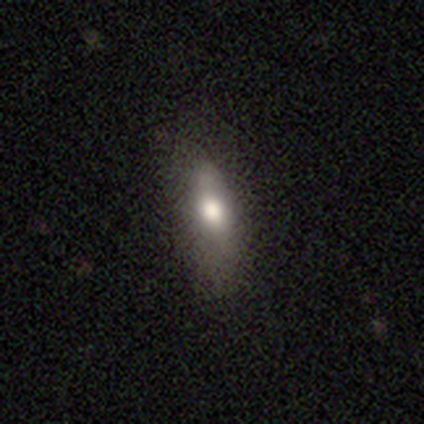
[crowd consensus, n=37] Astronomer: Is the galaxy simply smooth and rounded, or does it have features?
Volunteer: smooth — 65%.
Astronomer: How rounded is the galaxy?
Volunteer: in between — 67%.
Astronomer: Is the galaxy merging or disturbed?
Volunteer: none — 68%.